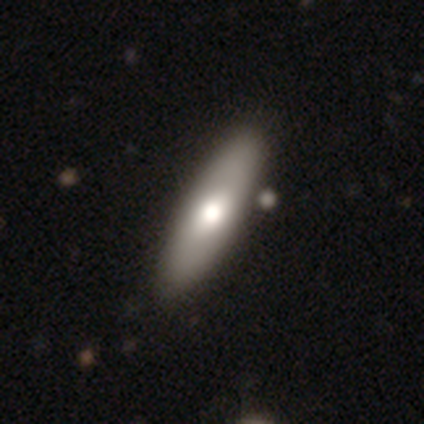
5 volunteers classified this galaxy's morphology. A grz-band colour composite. It shows a featured or disk galaxy (80%) viewed edge-on (75%) with a rounded central bulge (100%). Merging: none (100%).